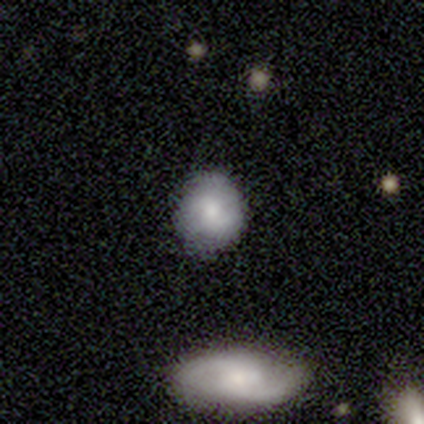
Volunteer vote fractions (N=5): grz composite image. It shows a smooth galaxy with no disk features (80%) that is round (75%). Merging: none (100%).